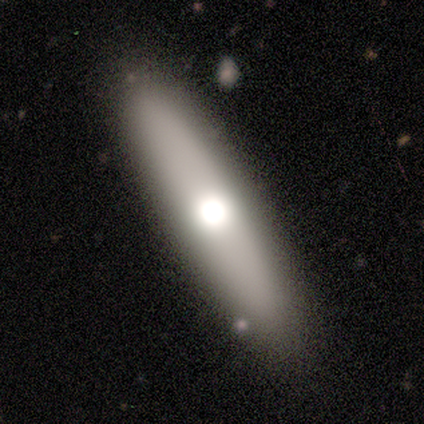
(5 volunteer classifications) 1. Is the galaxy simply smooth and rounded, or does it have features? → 80% featured or disk, 20% smooth, 0% star or artifact.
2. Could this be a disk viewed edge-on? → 75% yes, 25% no.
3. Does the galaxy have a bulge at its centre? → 67% rounded, 33% none, 0% boxy.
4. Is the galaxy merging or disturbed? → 80% none, 20% merger, 0% minor disturbance, 0% major disturbance.